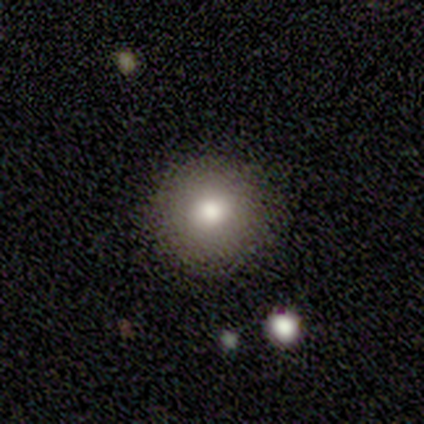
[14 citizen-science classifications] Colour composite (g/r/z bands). It shows a smooth galaxy with no disk features (64%) that is round (89%). Merging: none (83%).